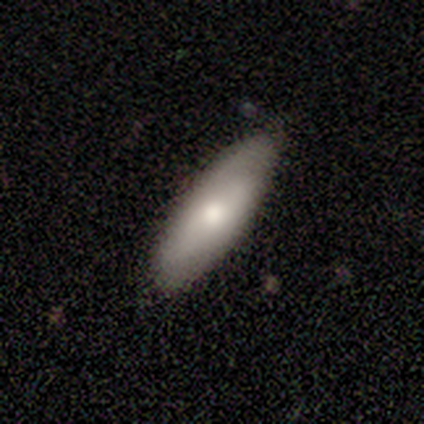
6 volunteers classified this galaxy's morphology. Overall: smooth (50%; featured or disk 33%). How rounded: in between (67%; cigar-shaped 33%). Merging: none (80%).